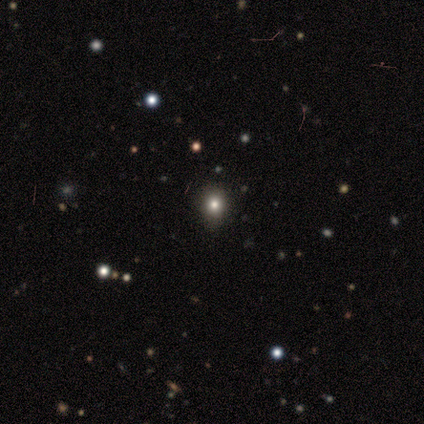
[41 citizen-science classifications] Overall: smooth (73%). How rounded: round (63%; in between 33%). Merging: none (73%).